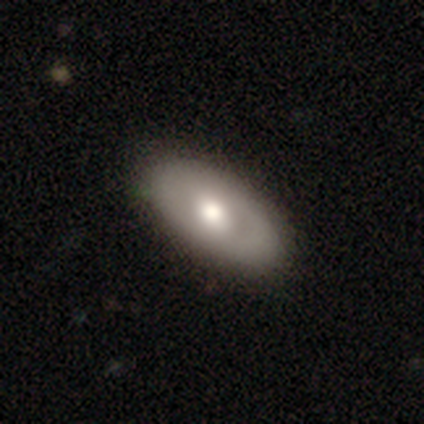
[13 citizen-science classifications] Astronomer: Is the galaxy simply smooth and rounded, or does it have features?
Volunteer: smooth — 62% (runner-up: featured or disk, 38%).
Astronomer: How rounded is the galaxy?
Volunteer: in between — 100%.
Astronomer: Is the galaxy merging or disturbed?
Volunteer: none — 92%.